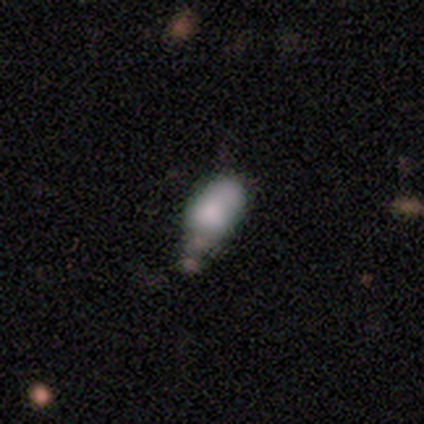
Overall: featured or disk (40%, tied with star or artifact). Edge-on disk: no (100%). Bar: no (100%). Spiral arms: no (100%). Bulge size: small (50%, tied with none). Merging: minor disturbance (67%; merger 33%).